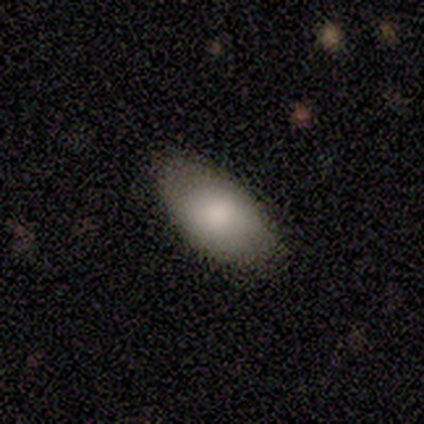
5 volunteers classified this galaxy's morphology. Volunteers were most divided on "merging": none: 80%, minor disturbance: 20%, major disturbance: 0%, merger: 0%. More confident: smooth or featured — smooth (100%); how rounded — in between (100%).